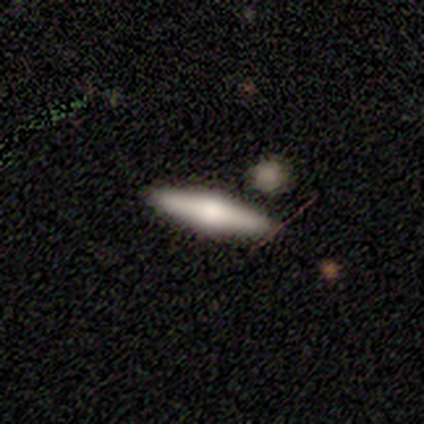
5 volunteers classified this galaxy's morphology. Overall: featured or disk (100%). Edge-on disk: yes (100%). Edge-on bulge: rounded (100%). Merging: none (100%).